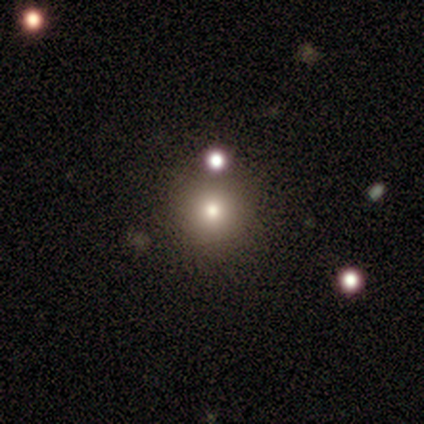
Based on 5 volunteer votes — A smooth galaxy with no disk features (40%, tied with featured or disk) that is round (100%).

Vote fractions:
- Smooth or featured? smooth: 40% (tied) / featured or disk: 40% (tied) / star or artifact: 20%
- How rounded? round: 100% / in between: 0% / cigar-shaped: 0%
- Merging? none: 100% / minor disturbance: 0% / major disturbance: 0% / merger: 0%